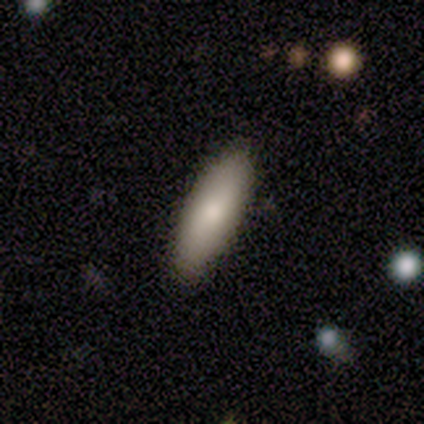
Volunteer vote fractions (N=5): A smooth galaxy with no disk features (100%) that is in between round and cigar-shaped (60%).

Vote fractions:
- Smooth or featured? smooth: 100% / featured or disk: 0% / star or artifact: 0%
- How rounded? in between: 60% / cigar-shaped: 40% / round: 0%
- Merging? none: 100% / minor disturbance: 0% / major disturbance: 0% / merger: 0%